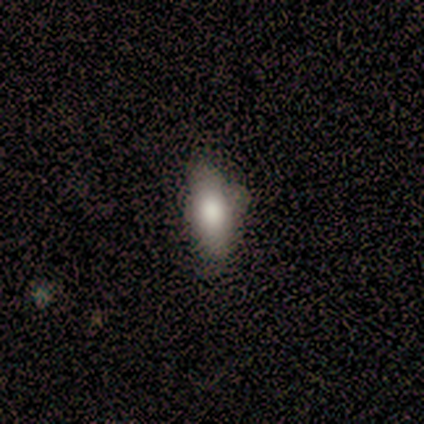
Smooth or featured?
  - smooth: 77% *
  - featured or disk: 13%
  - star or artifact: 10%
How rounded?
  - in between: 70% *
  - cigar-shaped: 30%
  - round: 0%
Merging?
  - none: 57% *
  - minor disturbance: 40%
  - major disturbance: 3%
  - merger: 0%